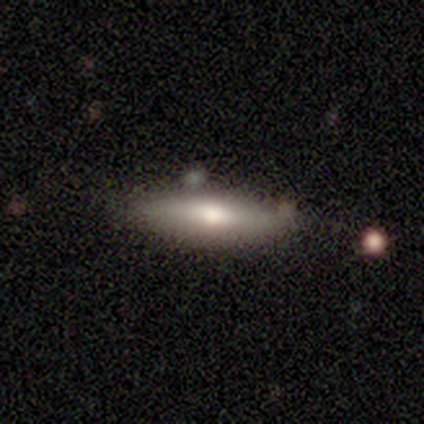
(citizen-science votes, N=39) Overall: smooth (56%; featured or disk 36%). How rounded: cigar-shaped (55%; in between 45%). Merging: none (75%).